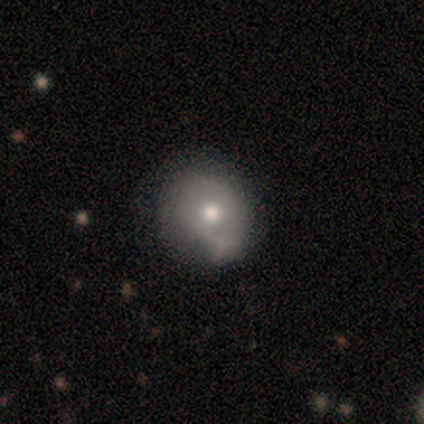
This is likely a smooth galaxy (75%). How rounded: clearly round (100%). Merging: clearly none (100%).